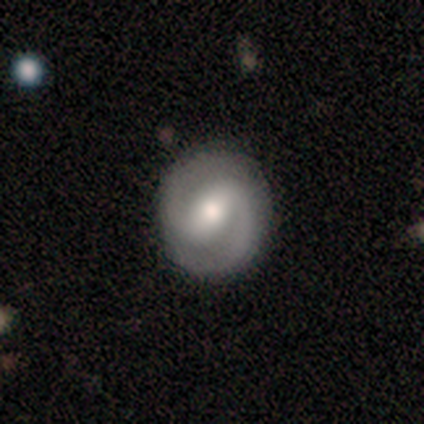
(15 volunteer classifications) A featured or disk galaxy (80%) with a weak bar (58%), 2 (100%) loose (42%) spiral arms (100%) and a moderate central bulge (75%).

Vote fractions:
- Smooth or featured? featured or disk: 80% / smooth: 13% / star or artifact: 7%
- Edge-on disk? no: 100% / yes: 0%
- Bar? weak: 58% / strong: 25% / no: 17%
- Spiral arms? yes: 100% / no: 0%
- Spiral winding? loose: 42% / tight: 33% / medium: 25%
- Spiral arm count? 2: 100% / 1: 0% / 3: 0% / 4: 0% / more than 4: 0% / can't tell: 0%
- Bulge size? moderate: 75% / small: 25% / dominant: 0% / large: 0% / none: 0%
- Merging? none: 100% / minor disturbance: 0% / major disturbance: 0% / merger: 0%